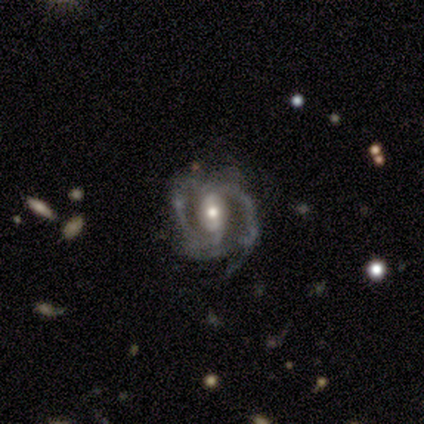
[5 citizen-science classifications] This appears to be a featured or disk galaxy (80%) with a weak bar (75%), 2 (100%) medium (67%) spiral arms (75%) and a moderate central bulge (75%). Merging: none (100%).